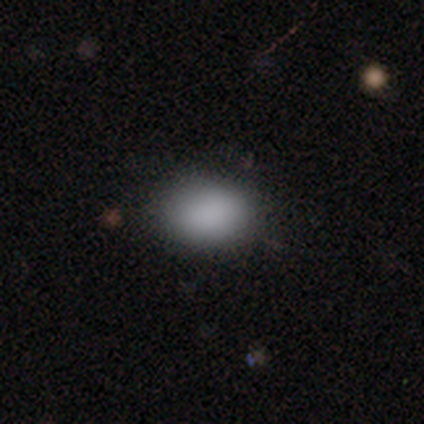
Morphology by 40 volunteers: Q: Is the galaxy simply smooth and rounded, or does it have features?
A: smooth — 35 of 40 (88%).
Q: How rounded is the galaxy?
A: in between — 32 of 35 (91%).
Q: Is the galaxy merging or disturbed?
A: none — 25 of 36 (69%).